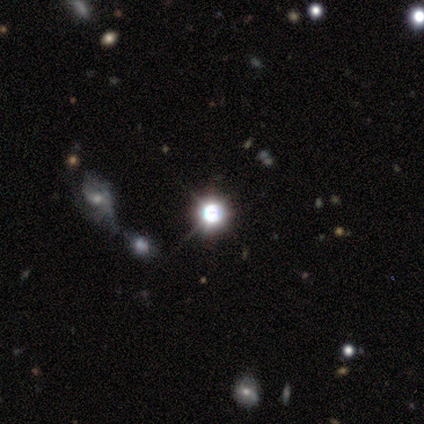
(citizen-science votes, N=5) Q: Smooth or featured?
A: star or artifact (80%); runner-up: smooth (20%)